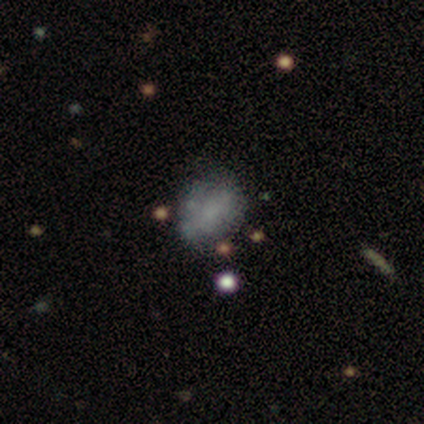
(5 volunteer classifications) Smooth or featured? 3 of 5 (60%) said smooth. How rounded? 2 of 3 (67%) said in between. Merging? 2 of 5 (40%, tied with major disturbance) said none.